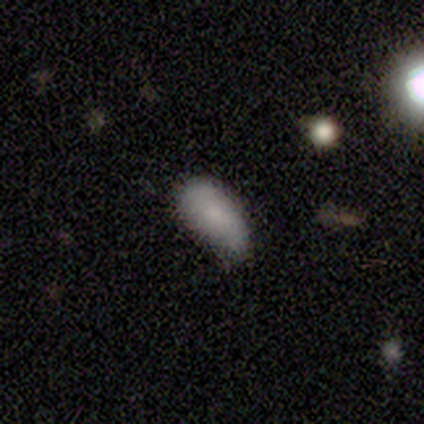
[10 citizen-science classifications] Smooth or featured?
  - smooth: 80% *
  - featured or disk: 20%
  - star or artifact: 0%
How rounded?
  - in between: 75% *
  - cigar-shaped: 25%
  - round: 0%
Merging?
  - minor disturbance: 50% *
  - none: 30%
  - major disturbance: 20%
  - merger: 0%